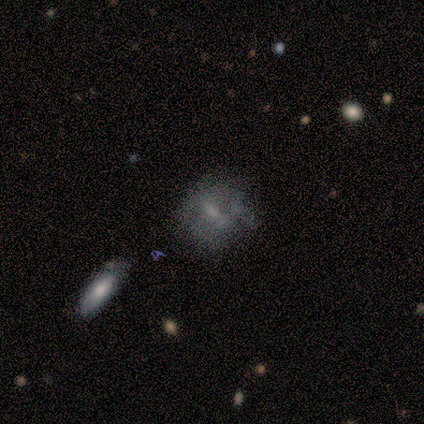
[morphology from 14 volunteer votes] Smooth or featured?
  - featured or disk: 71% *
  - smooth: 29%
  - star or artifact: 0%
Edge-on disk?
  - no: 90% *
  - yes: 10%
Bar?
  - weak: 56% *
  - no: 44%
  - strong: 0%
Spiral arms?
  - no: 89% *
  - yes: 11%
Bulge size?
  - none: 44% *
  - moderate: 33%
  - small: 22%
  - dominant: 0%
  - large: 0%
Merging?
  - none: 50% *
  - major disturbance: 29%
  - minor disturbance: 14%
  - merger: 7%